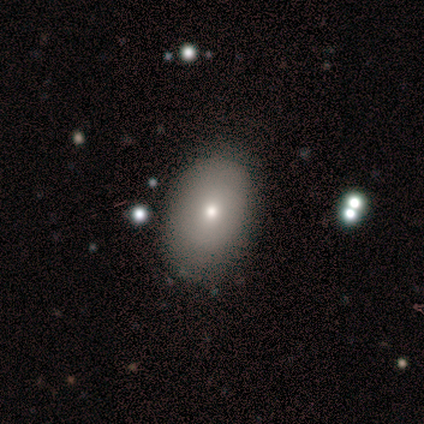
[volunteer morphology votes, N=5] smooth 60%, featured or disk 20%, star or artifact 20%. Down the decision tree: how rounded — in between (67%); merging — none (75%).